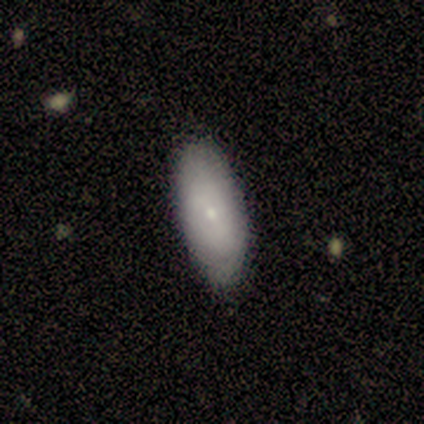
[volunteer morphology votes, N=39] smooth 69%, featured or disk 31%, star or artifact 0%. Down the decision tree: how rounded — in between (81%); merging — none (79%).